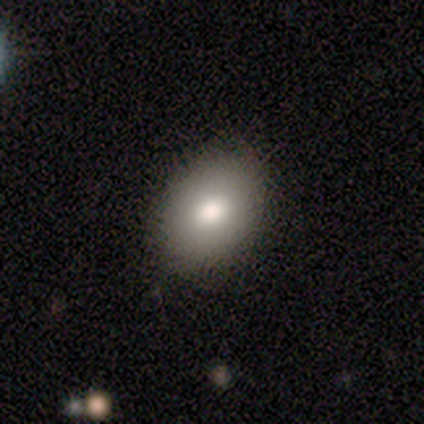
smooth_or_featured: smooth (p=1.00)
how_rounded: in between (p=0.80) [alt: round p=0.20]
merging: none (p=0.80) [alt: major disturbance p=0.20]